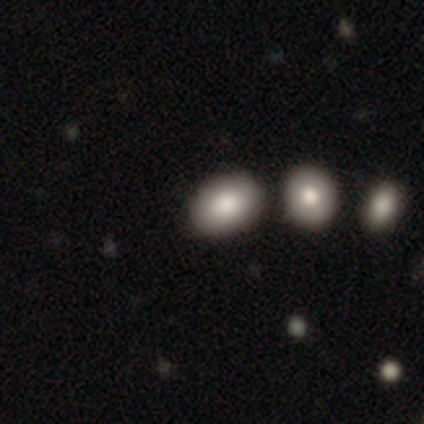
Volunteers were most divided on "merging": none: 80%, minor disturbance: 20%, major disturbance: 0%, merger: 0%. More confident: smooth or featured — smooth (100%); how rounded — in between (100%).